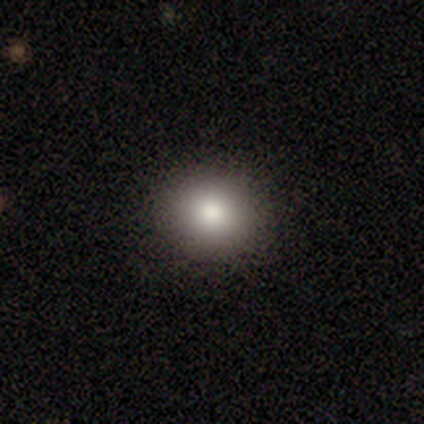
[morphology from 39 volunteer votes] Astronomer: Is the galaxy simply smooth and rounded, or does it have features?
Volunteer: smooth — 87%.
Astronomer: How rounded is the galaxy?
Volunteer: round — 91%.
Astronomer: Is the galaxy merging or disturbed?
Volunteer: none — 100%.